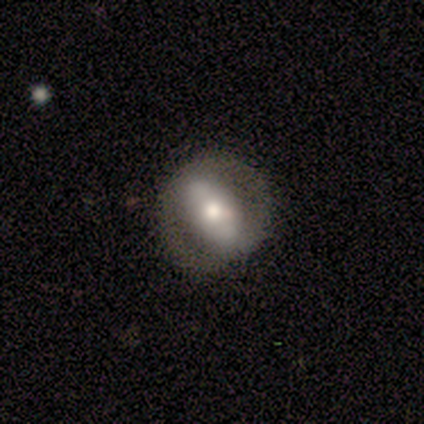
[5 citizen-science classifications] smooth 40% (tied), featured or disk 40% (tied), star or artifact 20%. Down the decision tree: how rounded — round (50%, tied with in between); merging — none (100%).